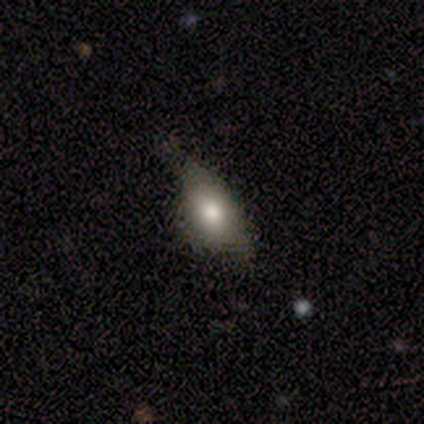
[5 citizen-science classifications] This is clearly a smooth galaxy (80%). How rounded: likely in between (75%). Merging: likely none (60%).